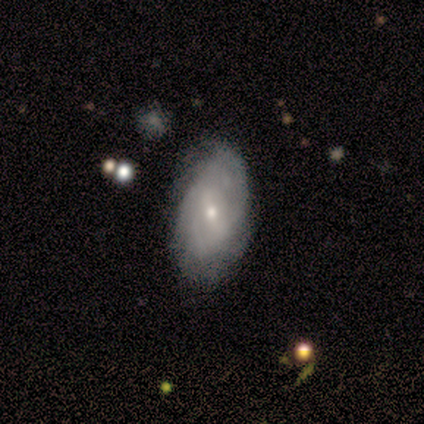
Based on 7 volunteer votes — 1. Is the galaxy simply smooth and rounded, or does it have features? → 100% featured or disk, 0% smooth, 0% star or artifact.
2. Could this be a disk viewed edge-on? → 100% no, 0% yes.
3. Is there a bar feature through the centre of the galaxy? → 71% no, 14% strong, 14% weak.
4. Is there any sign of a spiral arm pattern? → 86% yes, 14% no.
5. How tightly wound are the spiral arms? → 83% tight, 17% medium, 0% loose.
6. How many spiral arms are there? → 83% can't tell, 17% more than 4, 0% 1, 0% 2, 0% 3, 0% 4.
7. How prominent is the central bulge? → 57% small, 43% moderate, 0% dominant, 0% large, 0% none.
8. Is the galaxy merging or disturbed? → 100% none, 0% minor disturbance, 0% major disturbance, 0% merger.